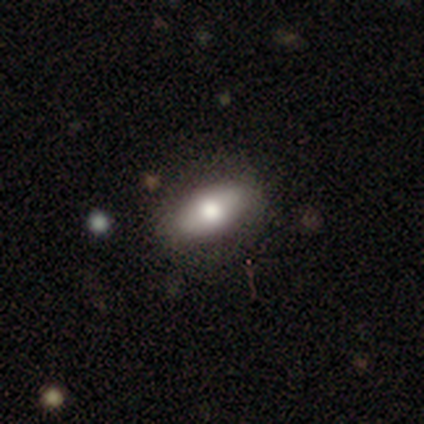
A smooth galaxy with no disk features (64%) that is in between round and cigar-shaped (84%). Merging: none (88%).